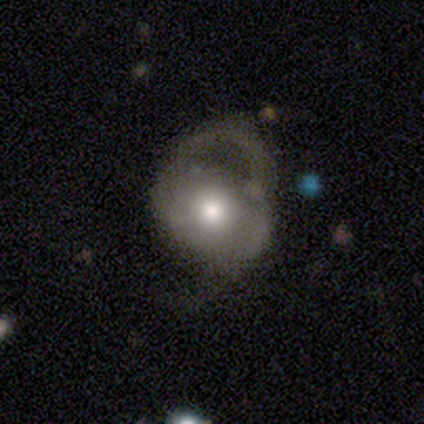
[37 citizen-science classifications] Smooth or featured? featured or disk (59%)
Edge-on disk? no (95%)
Bar? no (86%)
Spiral arms? yes (52%)
Spiral winding? medium (64%)
Spiral arm count? 2 (55%)
Bulge size? moderate (67%)
Merging? major disturbance (41%)